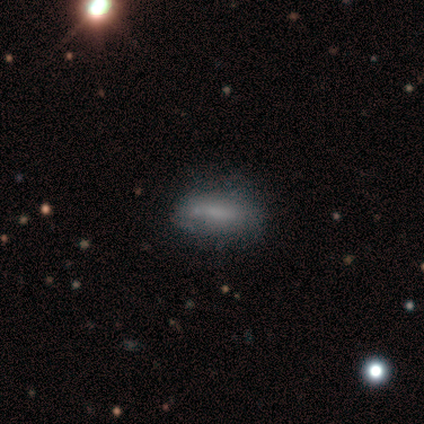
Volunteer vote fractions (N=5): Smooth or featured? 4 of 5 (80%) said smooth. How rounded? 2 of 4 (50%, tied with cigar-shaped) said in between. Merging? 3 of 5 (60%) said none.